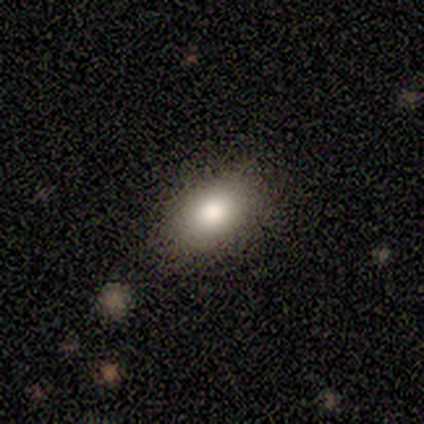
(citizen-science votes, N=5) This is clearly a smooth galaxy (80%). How rounded: clearly in between (100%). Merging: clearly none (100%).